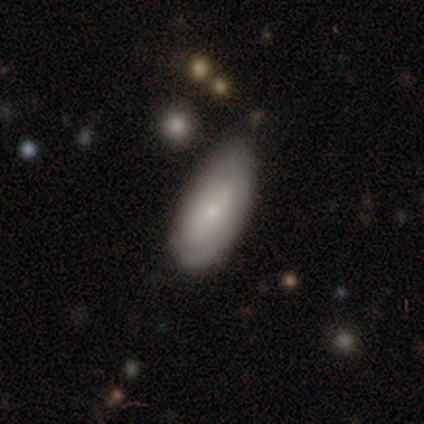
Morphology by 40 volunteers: A smooth galaxy with no disk features (65%) that is in between round and cigar-shaped (88%).

Vote fractions:
- Smooth or featured? smooth: 65% / featured or disk: 28% / star or artifact: 8%
- How rounded? in between: 88% / cigar-shaped: 12% / round: 0%
- Merging? minor disturbance: 49% / none: 46% / merger: 5% / major disturbance: 0%